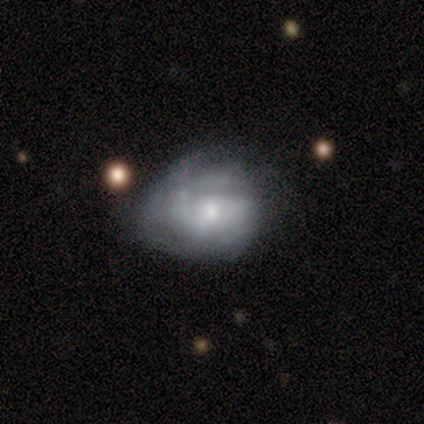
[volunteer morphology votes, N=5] Smooth or featured? 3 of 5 (60%) said featured or disk. Edge-on disk? 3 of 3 (100%) said no. Bar? 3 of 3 (100%) said no. Spiral arms? 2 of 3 (67%) said yes. Spiral winding? 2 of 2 (100%) said tight. Spiral arm count? 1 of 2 (50%, tied with can't tell) said 2. Bulge size? 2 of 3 (67%) said moderate. Merging? 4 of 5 (80%) said none.